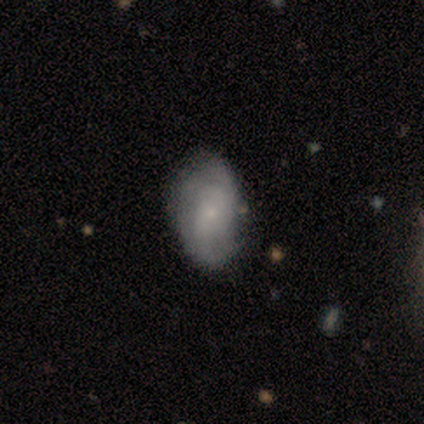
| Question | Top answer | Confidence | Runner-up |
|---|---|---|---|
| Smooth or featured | featured or disk | 60% | smooth (30%) |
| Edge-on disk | no | 100% | — |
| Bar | no | 100% | — |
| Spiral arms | yes | 83% | no (17%) |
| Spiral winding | tight | 60% | medium (20%) |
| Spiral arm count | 2 | 40% | tied: can't tell (40%) |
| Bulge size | small | 83% | moderate (17%) |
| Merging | none | 78% | minor disturbance (22%) |